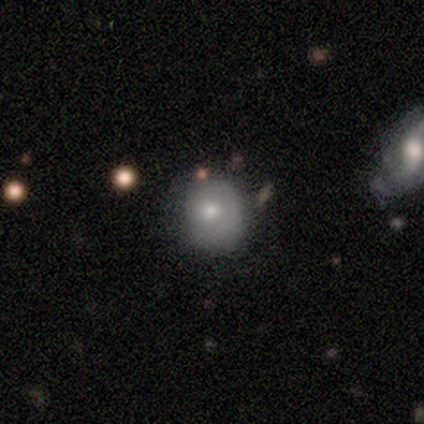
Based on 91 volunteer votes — Smooth or featured?
  - smooth: 66% *
  - featured or disk: 24%
  - star or artifact: 10%
How rounded?
  - round: 87% *
  - in between: 13%
  - cigar-shaped: 0%
Merging?
  - none: 65% *
  - minor disturbance: 27%
  - major disturbance: 7%
  - merger: 1%